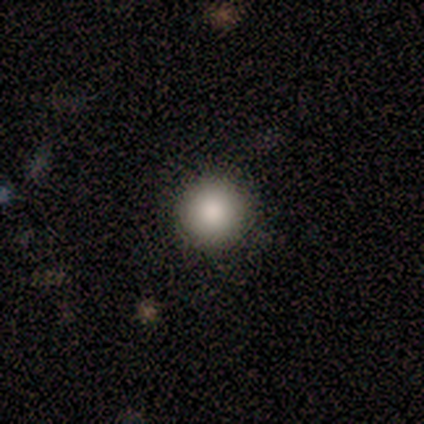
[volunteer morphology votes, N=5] Q: Smooth or featured?
A: smooth (100%)
Q: How rounded?
A: round (100%)
Q: Merging?
A: none (100%)